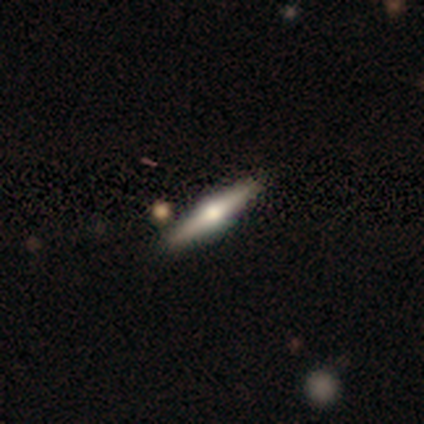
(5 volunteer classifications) This appears to be a featured or disk galaxy (60%) viewed edge-on (67%) with a rounded central bulge (100%). Merging: none (80%).